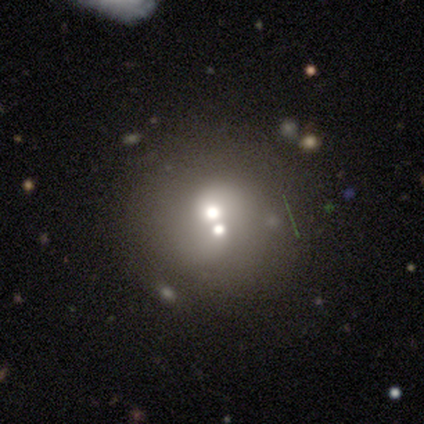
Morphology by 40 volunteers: A smooth galaxy with no disk features (48%) that is round (89%). Merging: merger (58%).